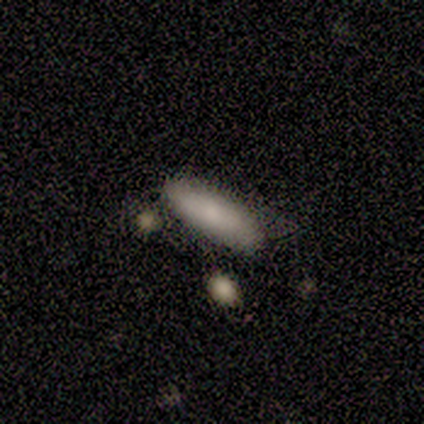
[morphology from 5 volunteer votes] Smooth or featured?
  - smooth: 80% *
  - featured or disk: 20%
  - star or artifact: 0%
How rounded?
  - cigar-shaped: 75% *
  - in between: 25%
  - round: 0%
Merging?
  - none: 60% *
  - major disturbance: 20%
  - merger: 20%
  - minor disturbance: 0%